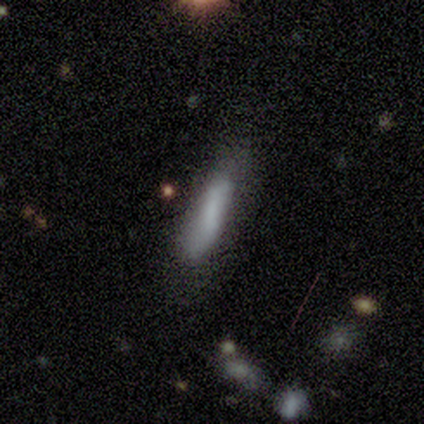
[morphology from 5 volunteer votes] Overall: smooth (80%). How rounded: in between (75%). Merging: none (80%).